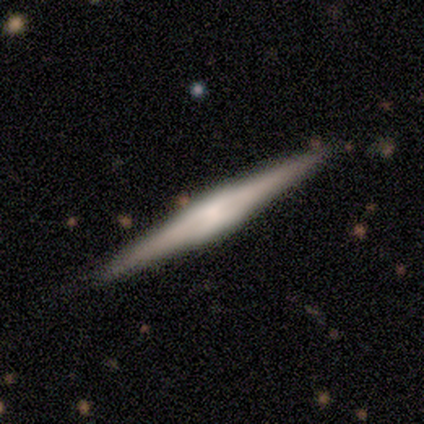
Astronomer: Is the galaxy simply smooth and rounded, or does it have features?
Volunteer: featured or disk — 71%.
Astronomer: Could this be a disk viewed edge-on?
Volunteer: yes — 100%.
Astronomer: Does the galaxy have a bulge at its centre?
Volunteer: boxy — 80%.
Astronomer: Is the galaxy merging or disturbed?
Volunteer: none — 50%, tied with minor disturbance at 50%.